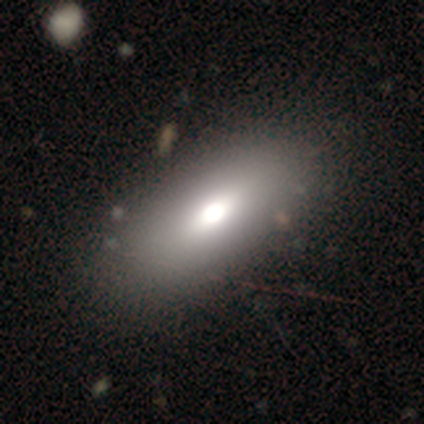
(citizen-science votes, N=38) Smooth or featured? 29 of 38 (76%) said smooth. How rounded? 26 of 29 (90%) said in between. Merging? 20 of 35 (57%) said none.